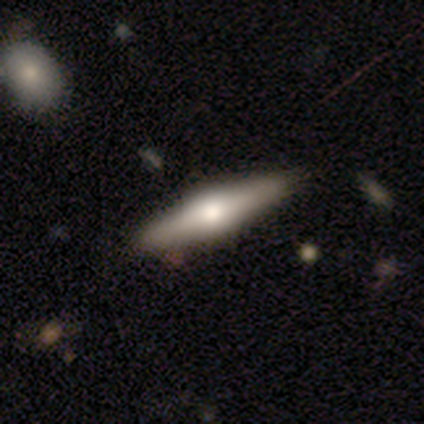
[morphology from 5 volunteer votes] Smooth or featured: featured or disk — 60% (smooth — 40%)
Edge-on disk: yes — 100%
Edge-on bulge: rounded — 67% (boxy — 33%)
Merging: none — 100%